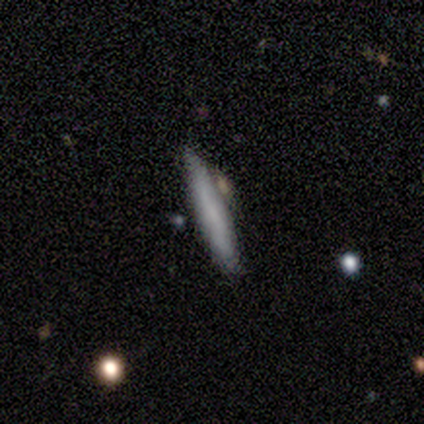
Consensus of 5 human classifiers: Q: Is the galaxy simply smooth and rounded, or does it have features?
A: smooth — 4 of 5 (80%).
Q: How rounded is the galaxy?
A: cigar-shaped — 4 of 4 (100%).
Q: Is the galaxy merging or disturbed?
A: none — 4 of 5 (80%).